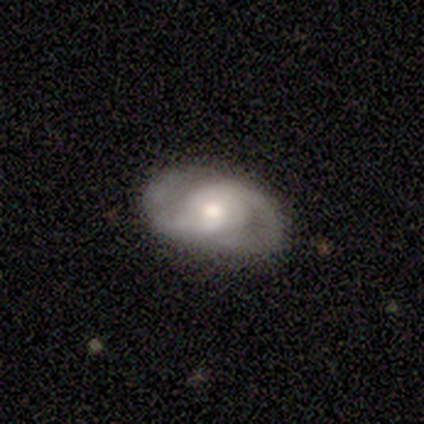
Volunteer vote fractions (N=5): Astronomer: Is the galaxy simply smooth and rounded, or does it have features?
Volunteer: featured or disk — 100%.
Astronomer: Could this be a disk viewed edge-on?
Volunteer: no — 80%.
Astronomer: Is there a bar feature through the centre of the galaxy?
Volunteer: no — 75%.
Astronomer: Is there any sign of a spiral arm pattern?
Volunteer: yes — 100%.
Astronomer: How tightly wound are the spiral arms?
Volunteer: medium — 50%, tied with loose at 50%.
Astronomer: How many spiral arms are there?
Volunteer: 2 — 100%.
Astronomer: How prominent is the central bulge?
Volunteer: moderate — 75%.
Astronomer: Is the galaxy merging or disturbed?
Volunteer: none — 100%.